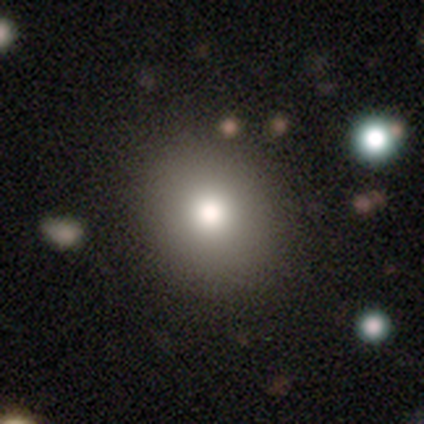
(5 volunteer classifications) Q: Smooth or featured?
A: smooth (100%)
Q: How rounded?
A: round (60%); runner-up: in between (40%)
Q: Merging?
A: none (100%)